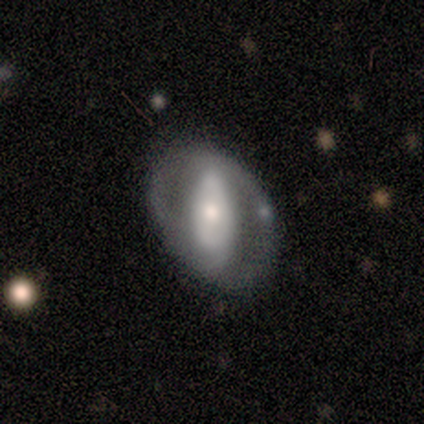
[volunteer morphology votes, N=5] This appears to be a featured or disk galaxy (80%) with a weak bar (67%), 2 (100%) medium (67%) spiral arms (100%) and a dominant central bulge (33%, tied with moderate and small). Merging: none (100%).